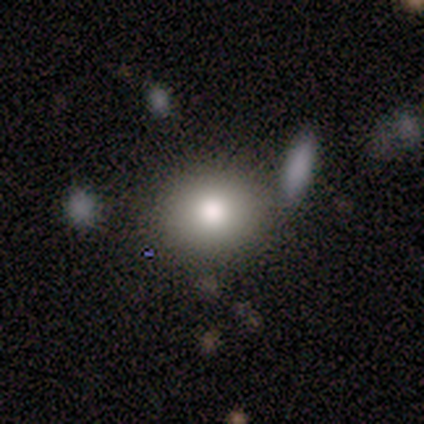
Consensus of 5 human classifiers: Smooth or featured: smooth — 80% (star or artifact — 20%)
How rounded: round — 100%
Merging: none — 50% (minor disturbance — 25%)